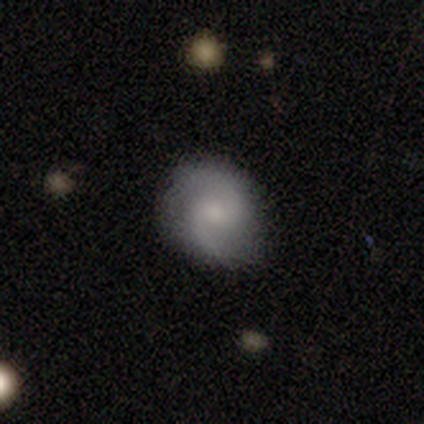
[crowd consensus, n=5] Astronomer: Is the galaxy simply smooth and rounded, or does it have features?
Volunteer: smooth — 40%, tied with featured or disk at 40%.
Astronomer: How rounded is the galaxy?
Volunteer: round — 50%, tied with in between at 50%.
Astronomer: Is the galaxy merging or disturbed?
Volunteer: none — 100%.